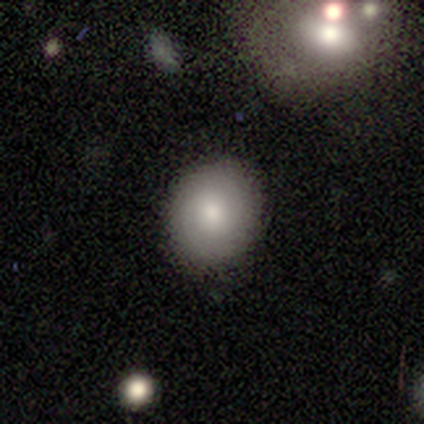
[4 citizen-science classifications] Smooth or featured? smooth (75%)
How rounded? round (100%)
Merging? none (100%)